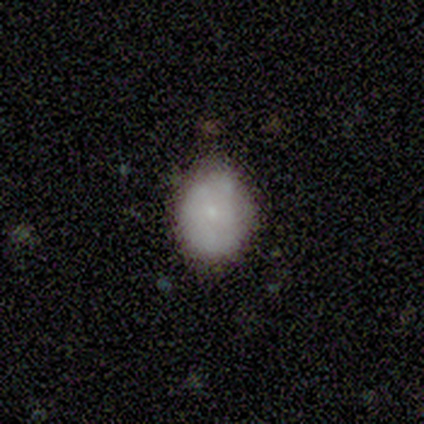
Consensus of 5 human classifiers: A smooth galaxy with no disk features (80%) that is round (75%).

Vote fractions:
- Smooth or featured? smooth: 80% / featured or disk: 20% / star or artifact: 0%
- How rounded? round: 75% / in between: 25% / cigar-shaped: 0%
- Merging? none: 60% / minor disturbance: 40% / major disturbance: 0% / merger: 0%